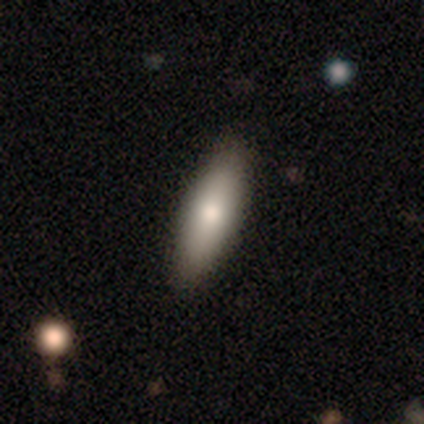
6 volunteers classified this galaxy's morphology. smooth 83%, star or artifact 17%, featured or disk 0%. Down the decision tree: how rounded — cigar-shaped (60%); merging — none (100%).